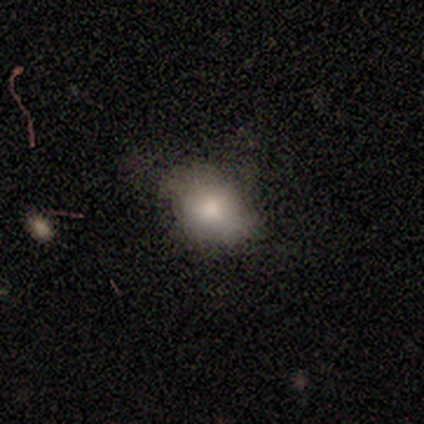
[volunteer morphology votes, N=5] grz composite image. It shows a smooth galaxy with no disk features (60%) that is in between round and cigar-shaped (67%). Merging: none (75%).